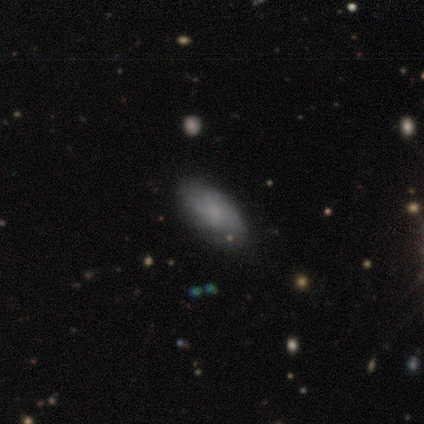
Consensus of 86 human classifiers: Volunteers were most divided on "smooth or featured": smooth: 64%, featured or disk: 29%, star or artifact: 7%. More confident: how rounded — in between (87%); merging — none (74%).